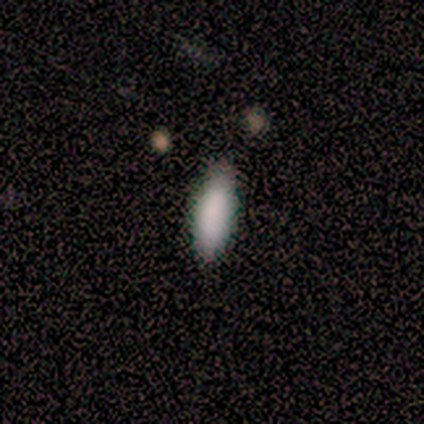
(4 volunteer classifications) Smooth or featured: smooth — 75% (featured or disk — 25%)
How rounded: in between — 67% (cigar-shaped — 33%)
Merging: none — 100%